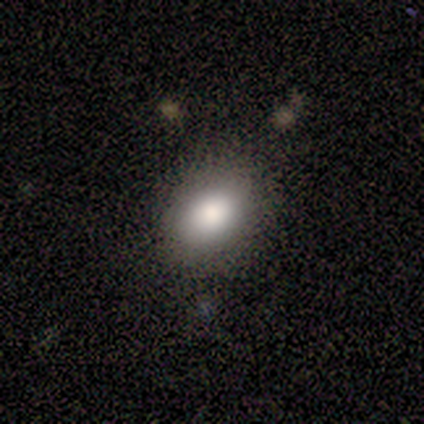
Smooth or featured: smooth — 60% (star or artifact — 40%)
How rounded: round — 67% (in between — 33%)
Merging: none — 100%